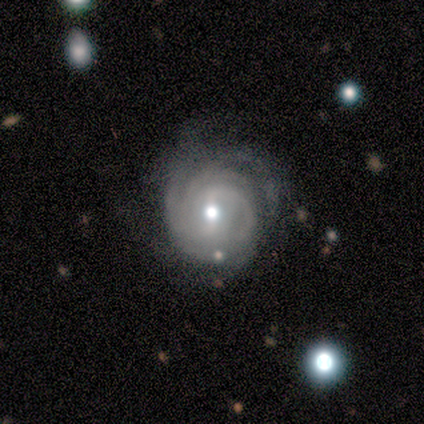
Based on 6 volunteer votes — A featured or disk galaxy (100%) with a weak bar (100%), 3 (50%) tight (83%) spiral arms (100%) and a moderate central bulge (83%).

Vote fractions:
- Smooth or featured? featured or disk: 100% / smooth: 0% / star or artifact: 0%
- Edge-on disk? no: 100% / yes: 0%
- Bar? weak: 100% / strong: 0% / no: 0%
- Spiral arms? yes: 100% / no: 0%
- Spiral winding? tight: 83% / loose: 17% / medium: 0%
- Spiral arm count? 3: 50% / 2: 17% / 4: 17% / can't tell: 17% / 1: 0% / more than 4: 0%
- Bulge size? moderate: 83% / small: 17% / dominant: 0% / large: 0% / none: 0%
- Merging? none: 83% / minor disturbance: 17% / major disturbance: 0% / merger: 0%